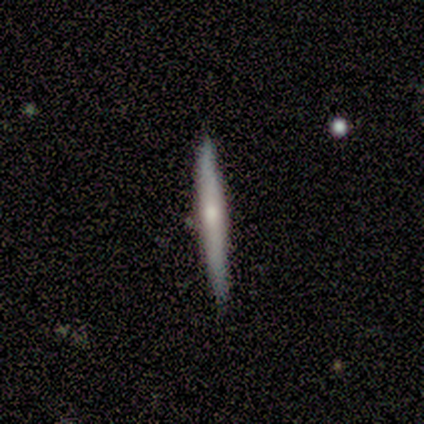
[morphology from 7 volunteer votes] This is marginally a smooth galaxy (43%, tied with featured or disk). How rounded: clearly cigar-shaped (100%). Merging: clearly none (83%).